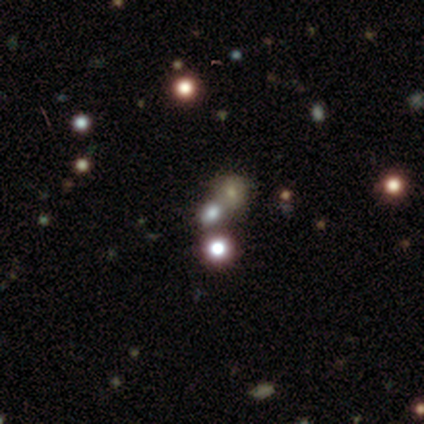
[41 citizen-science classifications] smooth_or_featured: star or artifact (p=0.54) [alt: smooth p=0.37]